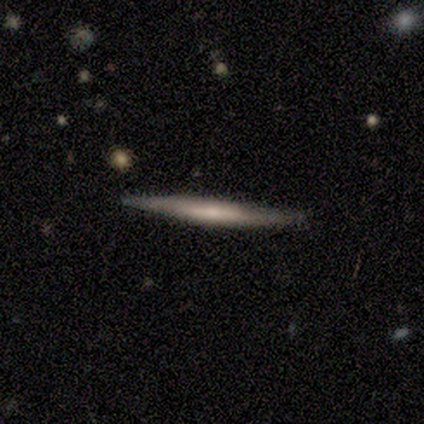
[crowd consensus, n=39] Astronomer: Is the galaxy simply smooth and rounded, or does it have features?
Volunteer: featured or disk — 54% (runner-up: smooth, 33%).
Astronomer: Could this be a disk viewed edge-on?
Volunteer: yes — 95%.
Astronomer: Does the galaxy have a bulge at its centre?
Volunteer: none — 60%.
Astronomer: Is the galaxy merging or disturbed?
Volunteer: none — 91%.